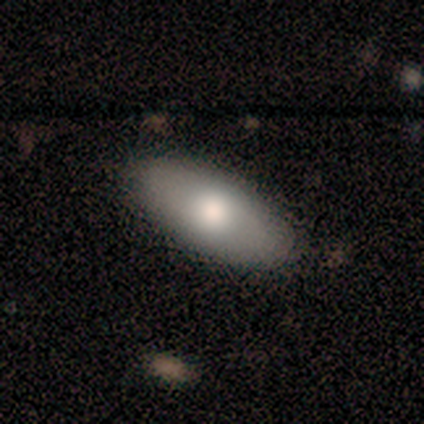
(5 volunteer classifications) Smooth or featured?
  - smooth: 60% *
  - featured or disk: 20%
  - star or artifact: 20%
How rounded?
  - in between: 67% *
  - cigar-shaped: 33%
  - round: 0%
Merging?
  - none: 100% *
  - minor disturbance: 0%
  - major disturbance: 0%
  - merger: 0%